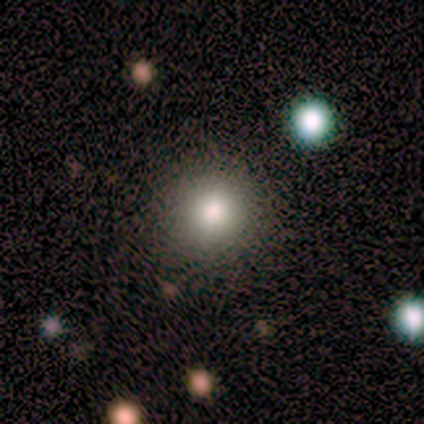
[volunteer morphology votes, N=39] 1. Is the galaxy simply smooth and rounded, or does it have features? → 72% smooth, 21% star or artifact, 8% featured or disk.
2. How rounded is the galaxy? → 96% round, 4% in between, 0% cigar-shaped.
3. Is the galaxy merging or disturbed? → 94% none, 6% major disturbance, 0% minor disturbance, 0% merger.